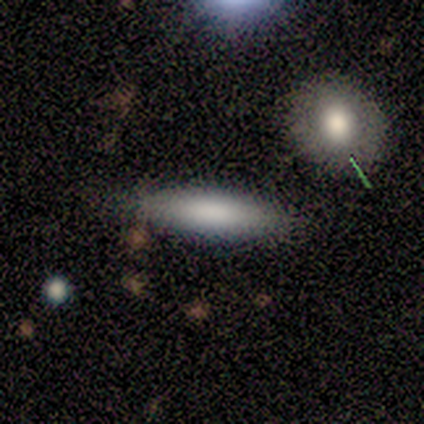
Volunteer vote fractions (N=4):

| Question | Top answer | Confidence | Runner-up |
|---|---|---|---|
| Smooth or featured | smooth | 100% | — |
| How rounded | in between | 50% | tied: cigar-shaped (50%) |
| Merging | none | 100% | — |